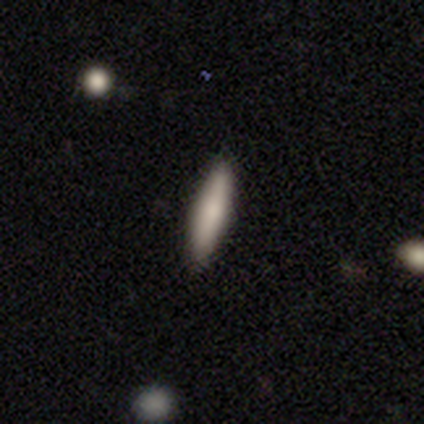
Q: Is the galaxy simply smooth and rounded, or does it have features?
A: smooth — 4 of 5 (80%).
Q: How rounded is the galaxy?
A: cigar-shaped — 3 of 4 (75%).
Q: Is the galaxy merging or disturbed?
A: none — 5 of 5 (100%).